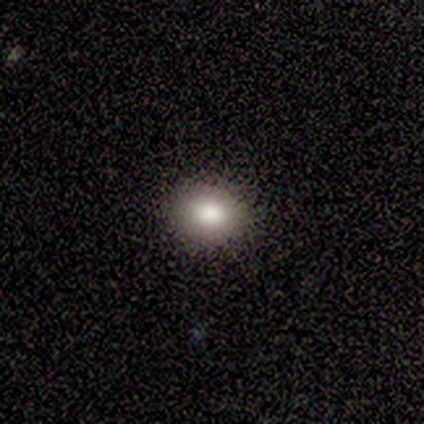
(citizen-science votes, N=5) Volunteers were most divided on "how rounded": round: 60%, in between: 40%, cigar-shaped: 0%. More confident: smooth or featured — smooth (100%); merging — none (80%).